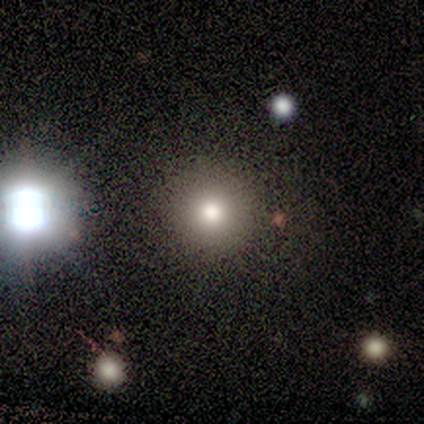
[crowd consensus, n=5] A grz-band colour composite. It shows a smooth galaxy with no disk features (100%) that is round (100%). Merging: none (60%).